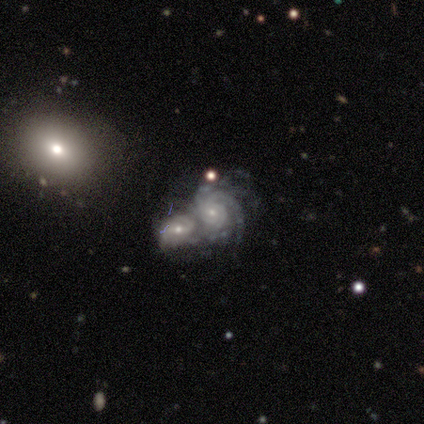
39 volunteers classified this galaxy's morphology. featured or disk 92%, star or artifact 5%, smooth 3%. Down the decision tree: edge-on disk — no (100%); bar — no (75%); spiral arms — yes (92%); spiral arm count — can't tell (39%); spiral winding — tight (58%); bulge size — small (81%); merging — merger (89%).